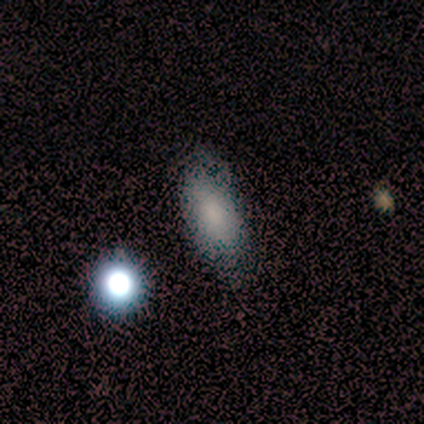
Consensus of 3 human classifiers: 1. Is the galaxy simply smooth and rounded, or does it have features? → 67% smooth, 33% featured or disk, 0% star or artifact.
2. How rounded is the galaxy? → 50% in between (tied), 50% cigar-shaped (tied), 0% round.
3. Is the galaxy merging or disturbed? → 67% none, 33% minor disturbance, 0% major disturbance, 0% merger.